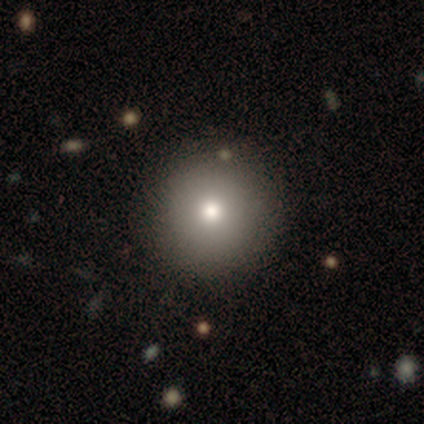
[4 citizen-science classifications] Smooth or featured? 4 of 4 (100%) said smooth. How rounded? 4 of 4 (100%) said round. Merging? 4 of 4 (100%) said none.